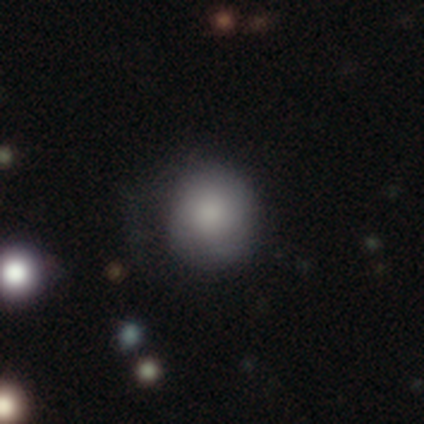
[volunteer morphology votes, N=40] This is clearly a smooth galaxy (80%). How rounded: clearly round (94%). Merging: likely none (64%).